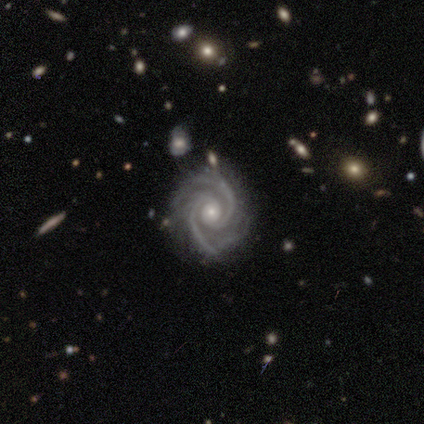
featured or disk 100%, smooth 0%, star or artifact 0%. Down the decision tree: edge-on disk — no (100%); bar — no (100%); spiral arms — yes (100%); spiral arm count — 2 (62%); spiral winding — tight (62%); bulge size — moderate (50%, tied with small); merging — none (88%).